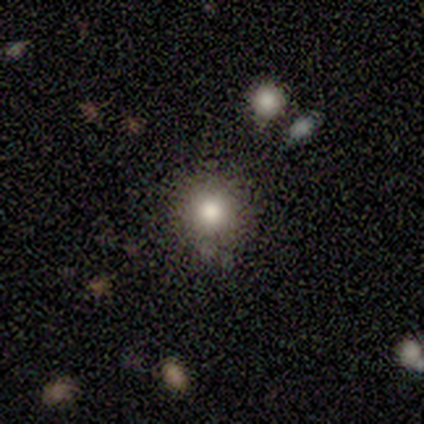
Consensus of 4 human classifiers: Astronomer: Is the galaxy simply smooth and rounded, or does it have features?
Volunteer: smooth — 100%.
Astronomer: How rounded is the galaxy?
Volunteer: round — 100%.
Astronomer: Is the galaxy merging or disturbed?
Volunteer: none — 100%.